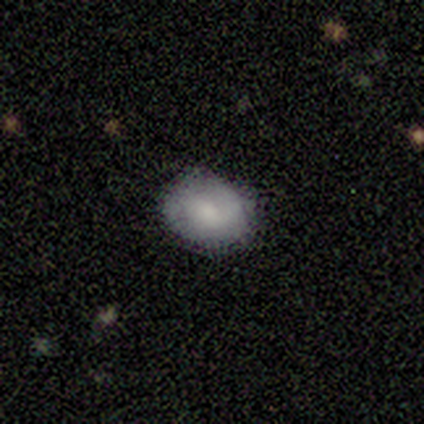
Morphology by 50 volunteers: A smooth galaxy with no disk features (58%) that is in between round and cigar-shaped (59%). Merging: none (88%).